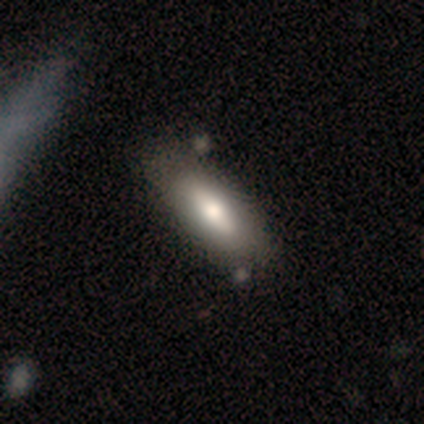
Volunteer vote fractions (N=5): Morphology: type=featured or disk (60%); edge-on=no (67%); bar=strong (50%, tied with no); spiral arms=no (100%); bulge=moderate (100%); merging=none (80%).